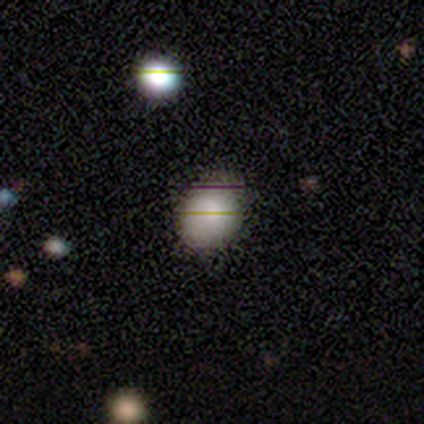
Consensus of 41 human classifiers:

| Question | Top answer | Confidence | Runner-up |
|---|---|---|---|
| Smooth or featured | smooth | 83% | featured or disk (12%) |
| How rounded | in between | 56% | round (41%) |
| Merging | none | 72% | minor disturbance (28%) |